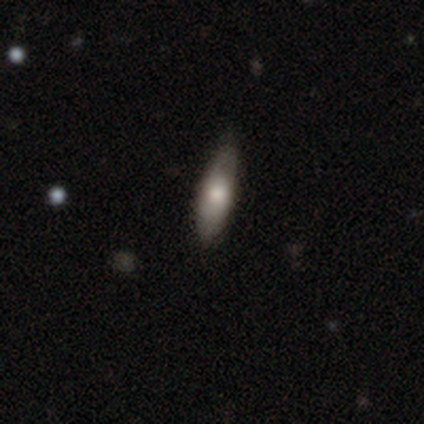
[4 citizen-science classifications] Volunteers were most divided on "how rounded" (2-way tie): in between: 50%, cigar-shaped: 50%, round: 0%. More confident: smooth or featured — smooth (100%); merging — none (75%).